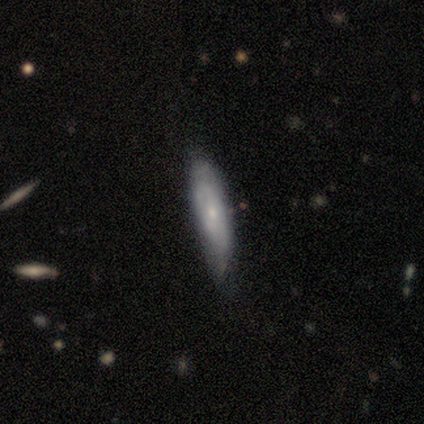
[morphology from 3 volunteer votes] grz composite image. It shows a smooth galaxy with no disk features (67%) that is in between round and cigar-shaped (50%, tied with cigar-shaped). Merging: none (67%).